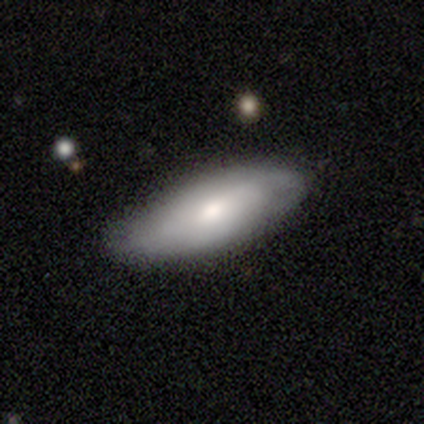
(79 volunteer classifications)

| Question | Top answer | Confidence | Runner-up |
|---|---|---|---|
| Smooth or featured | smooth | 57% | featured or disk (42%) |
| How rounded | in between | 80% | cigar-shaped (20%) |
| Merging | none | 44% | minor disturbance (15%) |